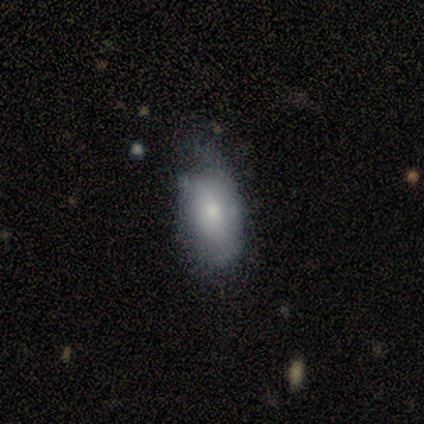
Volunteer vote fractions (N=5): Q: Smooth or featured?
A: smooth (100%)
Q: How rounded?
A: in between (100%)
Q: Merging?
A: minor disturbance (80%); runner-up: major disturbance (20%)